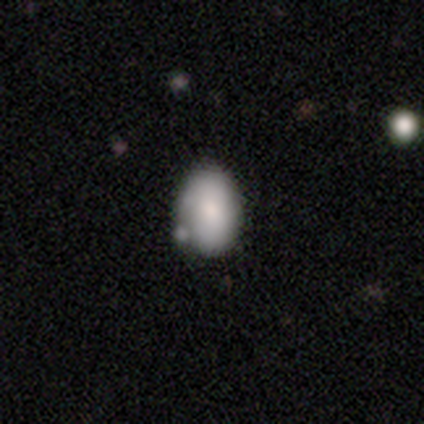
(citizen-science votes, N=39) This appears to be a smooth galaxy with no disk features (64%) that is in between round and cigar-shaped (80%). Merging: none (57%).